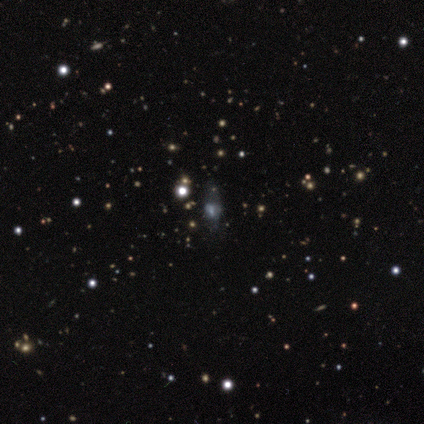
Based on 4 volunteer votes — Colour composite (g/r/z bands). It shows a featured or disk galaxy (50%, tied with star or artifact) with no bar (100%), no spiral arms (100%) and a large central bulge (50%, tied with small). Merging: none (50%, tied with major disturbance).